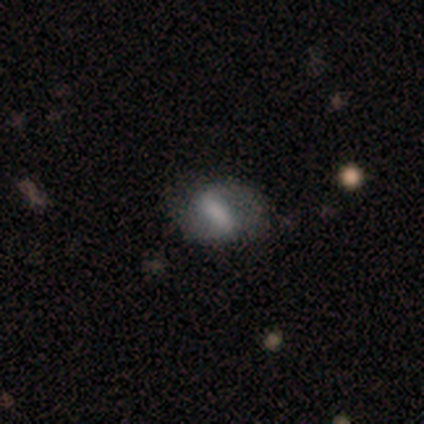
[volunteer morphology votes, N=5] A featured or disk galaxy (60%) with a weak bar (67%), 2 (100%) medium (100%) spiral arms (67%) and a moderate central bulge (33%, tied with small and none).

Vote fractions:
- Smooth or featured? featured or disk: 60% / smooth: 40% / star or artifact: 0%
- Edge-on disk? no: 100% / yes: 0%
- Bar? weak: 67% / strong: 33% / no: 0%
- Spiral arms? yes: 67% / no: 33%
- Spiral winding? medium: 100% / tight: 0% / loose: 0%
- Spiral arm count? 2: 100% / 1: 0% / 3: 0% / 4: 0% / more than 4: 0% / can't tell: 0%
- Bulge size? moderate: 33% (tied) / small: 33% (tied) / none: 33% (tied) / dominant: 0% / large: 0%
- Merging? none: 60% / minor disturbance: 20% / major disturbance: 20% / merger: 0%